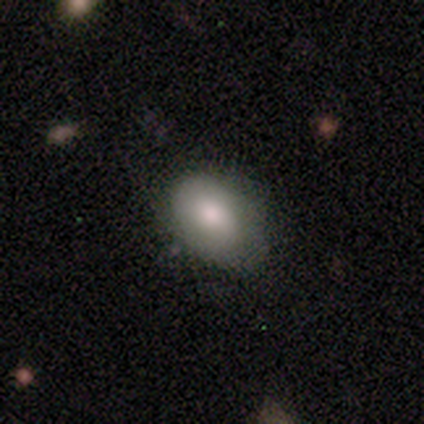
A smooth galaxy with no disk features (86%) that is in between round and cigar-shaped (100%). Merging: none (83%).